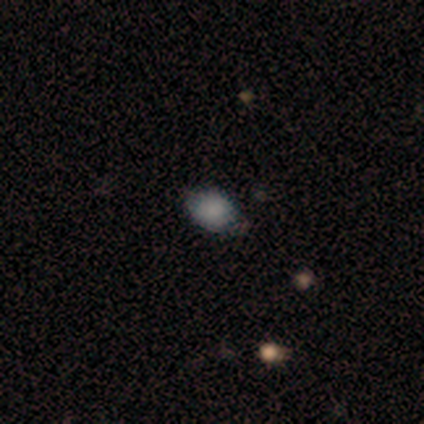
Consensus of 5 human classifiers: smooth 100%, featured or disk 0%, star or artifact 0%. Down the decision tree: how rounded — round (100%); merging — none (60%).